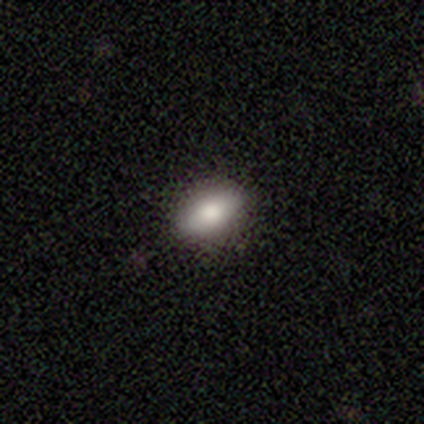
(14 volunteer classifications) smooth_or_featured: smooth (p=0.79) [alt: featured or disk p=0.14]
how_rounded: in between (p=0.91) [alt: cigar-shaped p=0.09]
merging: none (p=0.92) [alt: minor disturbance p=0.08]